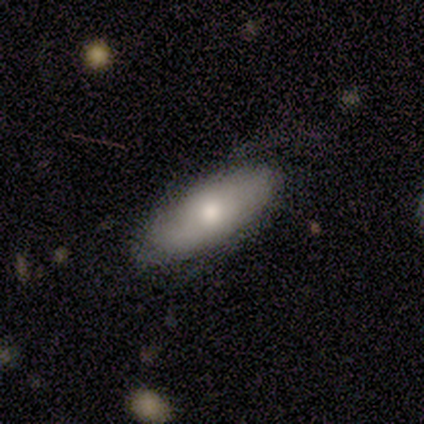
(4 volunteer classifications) Q: Smooth or featured?
A: smooth (75%); runner-up: featured or disk (25%)
Q: How rounded?
A: in between (67%); runner-up: cigar-shaped (33%)
Q: Merging?
A: none (75%); runner-up: minor disturbance (25%)